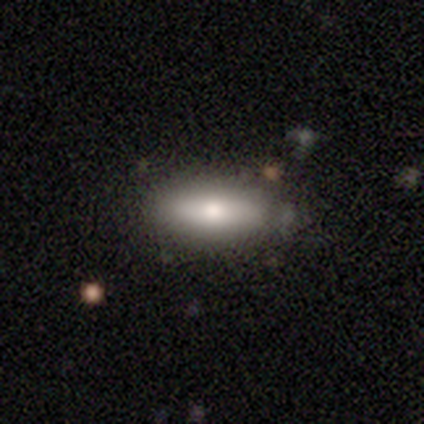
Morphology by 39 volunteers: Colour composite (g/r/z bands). It shows a smooth galaxy with no disk features (67%) that is in between round and cigar-shaped (69%). Merging: none (89%).